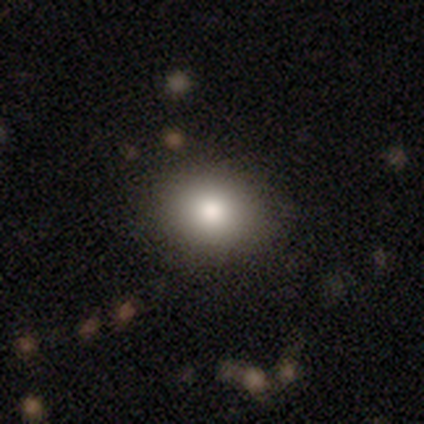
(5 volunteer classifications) Smooth or featured?
  - smooth: 100% *
  - featured or disk: 0%
  - star or artifact: 0%
How rounded?
  - round: 60% *
  - in between: 40%
  - cigar-shaped: 0%
Merging?
  - none: 100% *
  - minor disturbance: 0%
  - major disturbance: 0%
  - merger: 0%